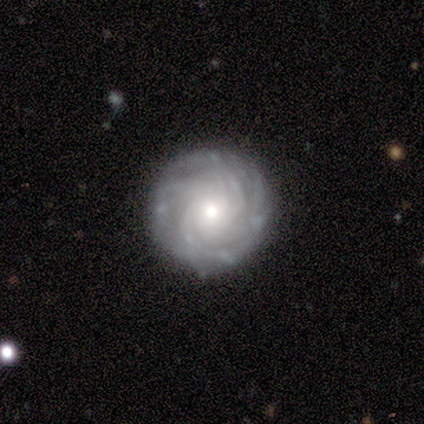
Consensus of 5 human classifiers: Overall: featured or disk (80%). Edge-on disk: no (100%). Bar: no (100%). Spiral arms: yes (100%). Spiral arm count: 4 (50%, tied with more than 4). Spiral winding: tight (100%). Bulge size: moderate (100%). Merging: none (100%).